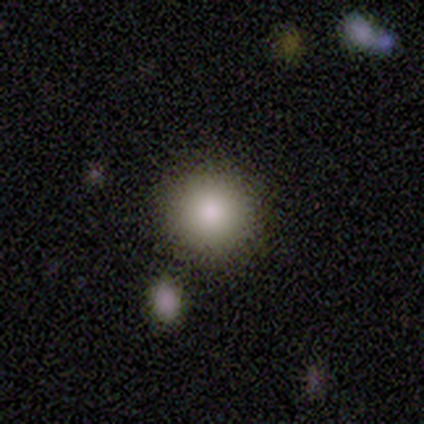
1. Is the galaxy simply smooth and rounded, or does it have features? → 100% smooth, 0% featured or disk, 0% star or artifact.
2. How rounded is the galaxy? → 80% round, 20% in between, 0% cigar-shaped.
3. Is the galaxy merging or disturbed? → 100% none, 0% minor disturbance, 0% major disturbance, 0% merger.